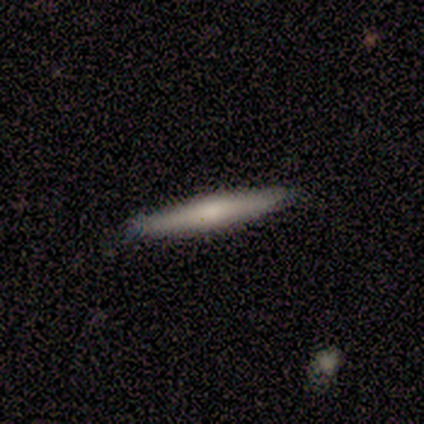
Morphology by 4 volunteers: Q: Smooth or featured?
A: smooth (75%); runner-up: featured or disk (25%)
Q: How rounded?
A: cigar-shaped (100%)
Q: Merging?
A: none (100%)